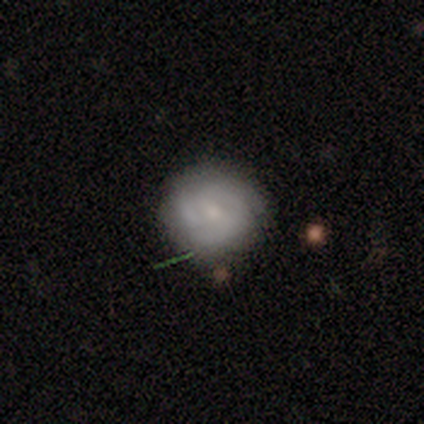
smooth_or_featured: featured or disk (p=0.58) [alt: smooth p=0.37]
disk_edge_on: no (p=0.98) [alt: yes p=0.02]
bar: no (p=0.64) [alt: weak p=0.32]
has_spiral_arms: yes (p=0.83) [alt: no p=0.17]
spiral_winding: tight (p=0.56) [alt: medium p=0.38]
spiral_arm_count: 3 (p=0.56) [alt: can't tell p=0.23]
bulge_size: small (p=0.60) [alt: moderate p=0.34]
merging: none (p=0.71) [alt: minor disturbance p=0.19]